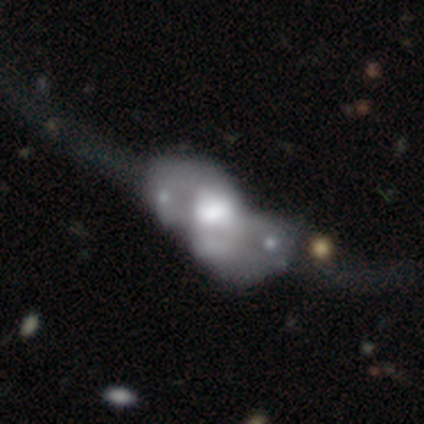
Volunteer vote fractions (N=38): Q: Smooth or featured?
A: featured or disk (68%); runner-up: smooth (29%)
Q: Edge-on disk?
A: no (92%); runner-up: yes (8%)
Q: Bar?
A: no (92%); runner-up: strong (4%)
Q: Spiral arms?
A: no (79%); runner-up: yes (21%)
Q: Bulge size?
A: large (46%); runner-up: moderate (29%)
Q: Merging?
A: merger (51%); runner-up: major disturbance (38%)